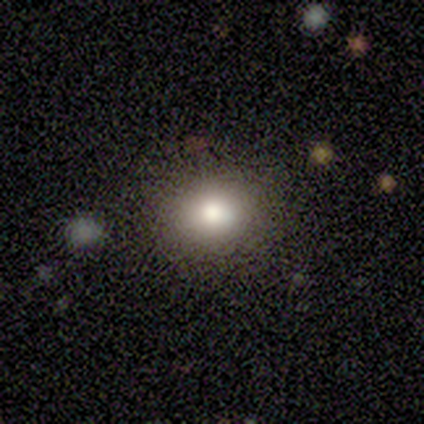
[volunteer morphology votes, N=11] A smooth galaxy with no disk features (100%) that is round (64%).

Vote fractions:
- Smooth or featured? smooth: 100% / featured or disk: 0% / star or artifact: 0%
- How rounded? round: 64% / in between: 36% / cigar-shaped: 0%
- Merging? none: 91% / major disturbance: 9% / minor disturbance: 0% / merger: 0%